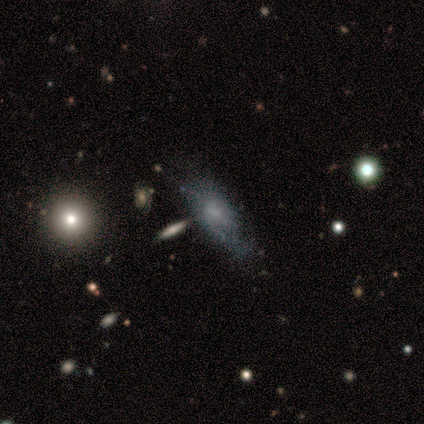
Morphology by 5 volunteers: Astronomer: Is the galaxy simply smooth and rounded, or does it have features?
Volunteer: featured or disk — 60%.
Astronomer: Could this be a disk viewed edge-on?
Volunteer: no — 67%.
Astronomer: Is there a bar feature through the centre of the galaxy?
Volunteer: weak — 100%.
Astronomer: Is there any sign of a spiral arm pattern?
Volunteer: yes — 100%.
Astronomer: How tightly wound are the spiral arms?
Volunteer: loose — 100%.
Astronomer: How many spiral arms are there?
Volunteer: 1 — 50%, tied with can't tell at 50%.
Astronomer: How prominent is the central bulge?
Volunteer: moderate — 50%, tied with none at 50%.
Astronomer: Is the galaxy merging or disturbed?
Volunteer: major disturbance — 50%.